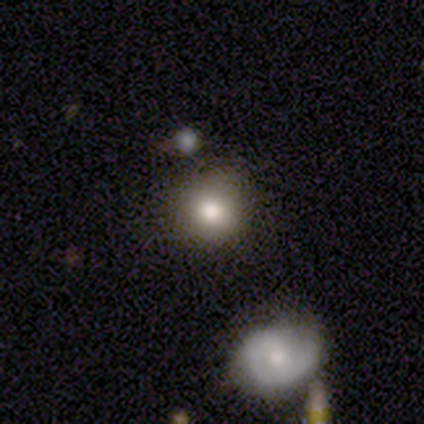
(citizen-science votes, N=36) A smooth galaxy with no disk features (72%) that is round (92%). Merging: none (80%).